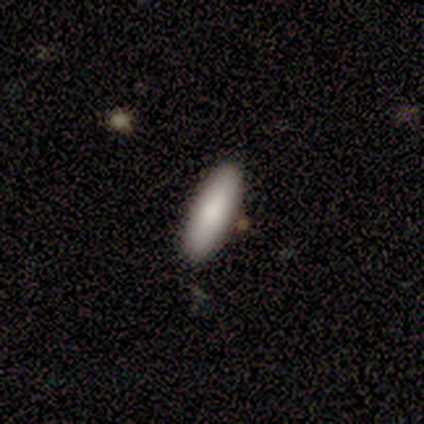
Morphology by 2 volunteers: Smooth or featured? 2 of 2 (100%) said smooth. How rounded? 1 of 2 (50%, tied with cigar-shaped) said in between. Merging? 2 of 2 (100%) said none.